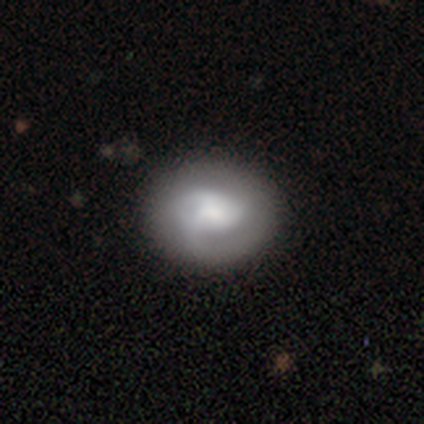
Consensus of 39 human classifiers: Volunteers were most divided on "bulge size": moderate: 36%, none: 27%, large: 23%, small: 9%, dominant: 5%. Remaining: edge-on disk — no (96%); spiral arms — yes (86%); bar — no (82%); merging — none (71%); smooth or featured — featured or disk (59%); spiral winding — tight (53%); spiral arm count — 3 (37%).